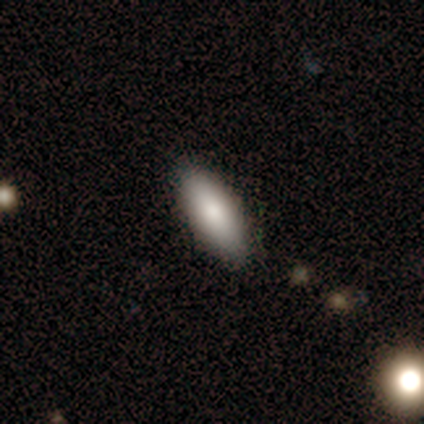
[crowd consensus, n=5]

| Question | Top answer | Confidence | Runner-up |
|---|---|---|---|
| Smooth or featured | smooth | 80% | star or artifact (20%) |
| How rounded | in between | 100% | — |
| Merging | none | 100% | — |